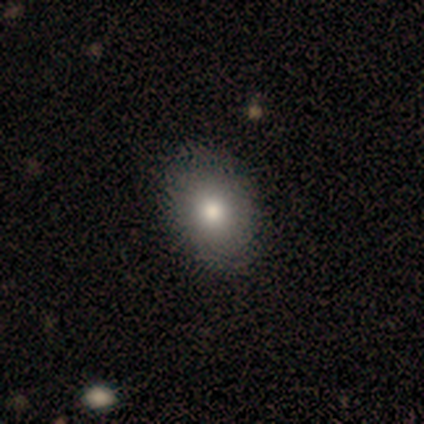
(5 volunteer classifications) A smooth galaxy with no disk features (40%, tied with star or artifact) that is in between round and cigar-shaped (100%).

Vote fractions:
- Smooth or featured? smooth: 40% (tied) / star or artifact: 40% (tied) / featured or disk: 20%
- How rounded? in between: 100% / round: 0% / cigar-shaped: 0%
- Merging? none: 100% / minor disturbance: 0% / major disturbance: 0% / merger: 0%